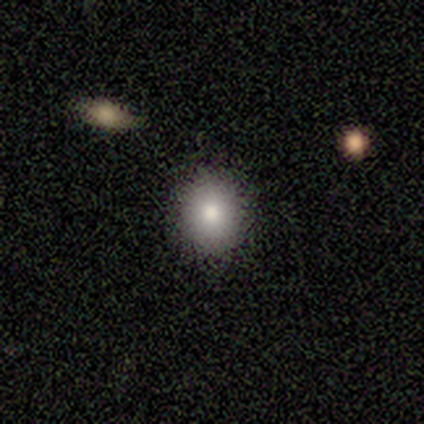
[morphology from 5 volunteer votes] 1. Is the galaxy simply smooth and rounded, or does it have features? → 80% smooth, 20% featured or disk, 0% star or artifact.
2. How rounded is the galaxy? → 75% round, 25% in between, 0% cigar-shaped.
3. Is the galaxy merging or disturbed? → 100% none, 0% minor disturbance, 0% major disturbance, 0% merger.